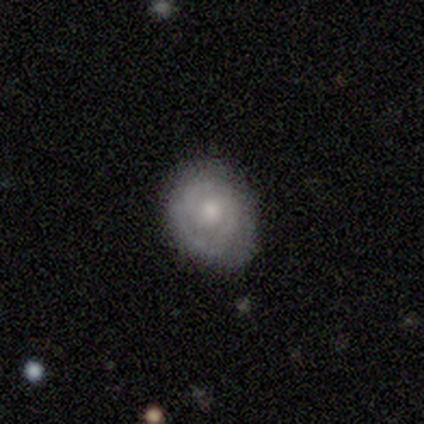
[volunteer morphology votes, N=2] Volunteers were most divided on "how rounded" (2-way tie): round: 50%, in between: 50%, cigar-shaped: 0%; "merging" (2-way tie): minor disturbance: 50%, major disturbance: 50%, none: 0%, merger: 0%. More confident: smooth or featured — smooth (100%).